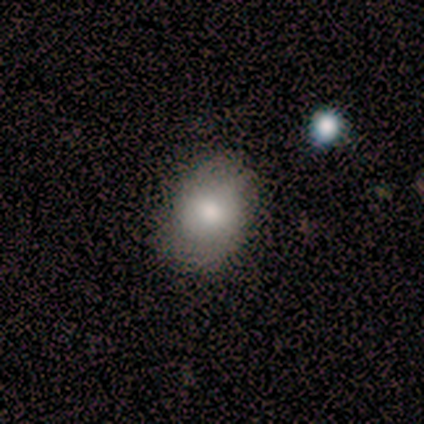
Smooth or featured: smooth — 100%
How rounded: in between — 60% (round — 40%)
Merging: none — 60% (minor disturbance — 40%)